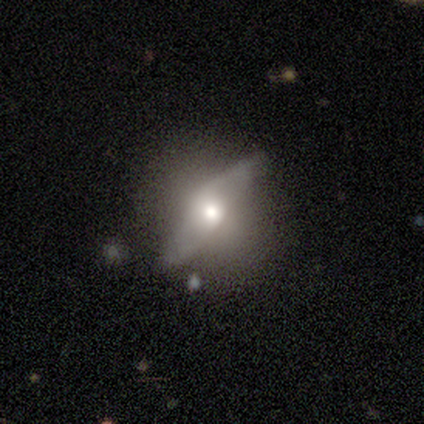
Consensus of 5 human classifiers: This appears to be a featured or disk galaxy (60%) with no bar (67%), no spiral arms (67%) and a moderate central bulge (100%). Merging: none (75%).